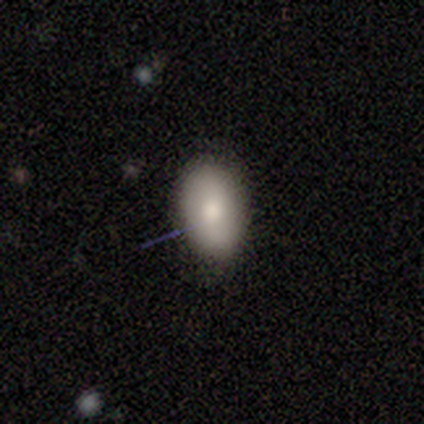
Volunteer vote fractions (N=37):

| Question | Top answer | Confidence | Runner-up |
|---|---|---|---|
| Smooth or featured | smooth | 73% | featured or disk (16%) |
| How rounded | in between | 85% | round (11%) |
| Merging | none | 79% | minor disturbance (12%) |